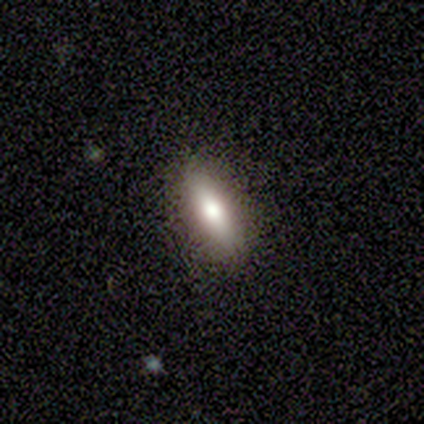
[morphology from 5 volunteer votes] Smooth or featured: smooth — 80% (featured or disk — 20%)
How rounded: in between — 75% (cigar-shaped — 25%)
Merging: none — 100%